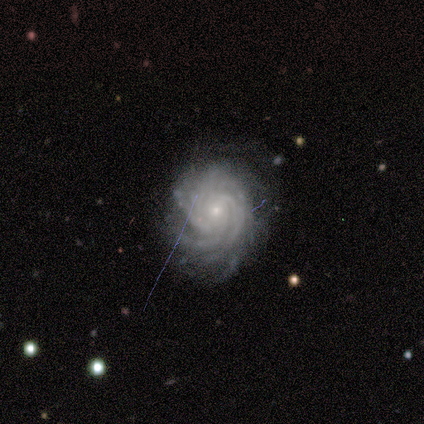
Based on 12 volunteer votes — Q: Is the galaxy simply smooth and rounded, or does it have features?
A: featured or disk — 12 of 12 (100%).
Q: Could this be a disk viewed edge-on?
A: no — 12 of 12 (100%).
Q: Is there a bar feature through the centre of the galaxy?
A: no — 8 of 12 (67%).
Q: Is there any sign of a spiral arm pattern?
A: yes — 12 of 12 (100%).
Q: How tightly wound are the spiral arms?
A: tight — 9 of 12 (75%).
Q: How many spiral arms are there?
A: more than 4 — 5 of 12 (42%).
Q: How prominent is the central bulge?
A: small — 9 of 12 (75%).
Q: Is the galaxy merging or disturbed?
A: none — 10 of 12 (83%).